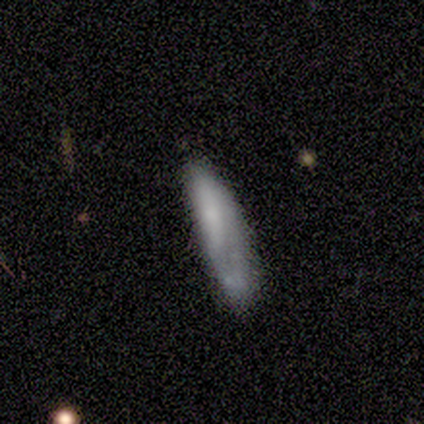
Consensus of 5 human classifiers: smooth-or-featured: smooth: 60% | featured or disk: 40% | star or artifact: 0%
  how-rounded: in between: 67% | cigar-shaped: 33% | round: 0%
  merging: none: 40% (tied) | minor disturbance: 40% (tied) | merger: 20% | major disturbance: 0%